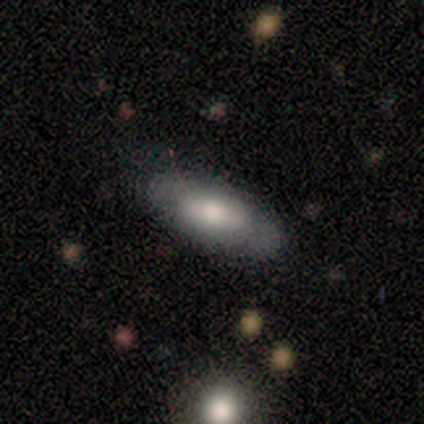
Overall: smooth (50%, tied with featured or disk). How rounded: in between (50%, tied with cigar-shaped). Merging: none (100%).